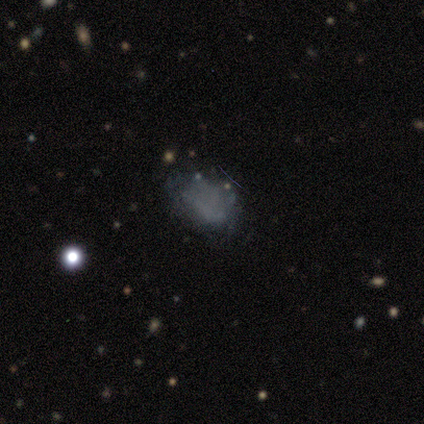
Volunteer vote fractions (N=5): Smooth or featured?
  - smooth: 60% *
  - featured or disk: 40%
  - star or artifact: 0%
How rounded?
  - in between: 100% *
  - round: 0%
  - cigar-shaped: 0%
Merging?
  - minor disturbance: 60% *
  - none: 40%
  - major disturbance: 0%
  - merger: 0%